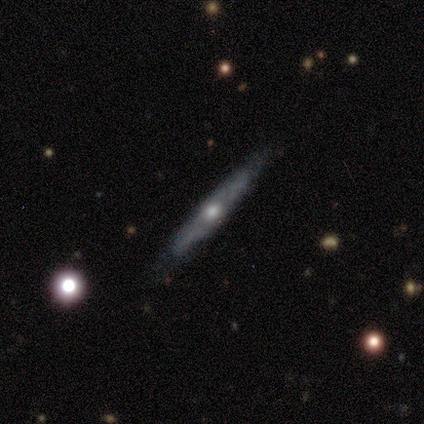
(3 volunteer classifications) Smooth or featured? featured or disk (100%)
Edge-on disk? yes (100%)
Edge-on bulge? rounded (67%)
Merging? none (67%)